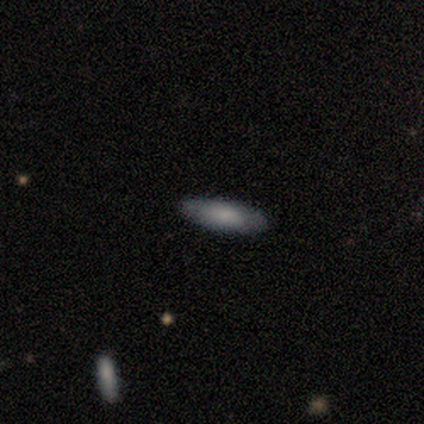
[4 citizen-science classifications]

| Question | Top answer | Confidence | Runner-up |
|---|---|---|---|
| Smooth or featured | smooth | 50% | tied: featured or disk (50%) |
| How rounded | in between | 50% | tied: cigar-shaped (50%) |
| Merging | none | 75% | minor disturbance (25%) |